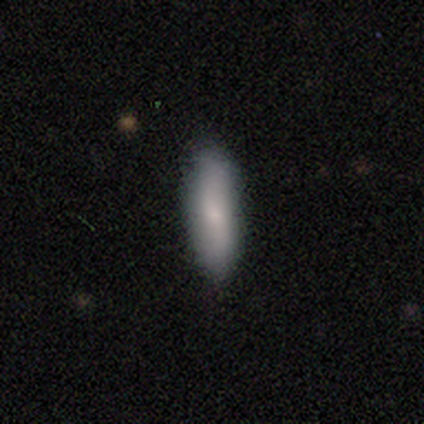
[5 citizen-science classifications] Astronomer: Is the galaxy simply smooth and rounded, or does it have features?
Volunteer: smooth — 80%.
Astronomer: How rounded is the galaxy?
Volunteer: in between — 75%.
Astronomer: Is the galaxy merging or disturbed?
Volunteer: none — 80%.